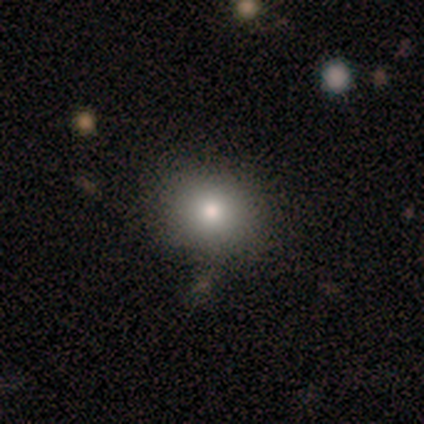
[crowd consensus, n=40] A smooth galaxy with no disk features (72%) that is round (79%).

Vote fractions:
- Smooth or featured? smooth: 72% / featured or disk: 15% / star or artifact: 12%
- How rounded? round: 79% / in between: 21% / cigar-shaped: 0%
- Merging? none: 89% / merger: 9% / minor disturbance: 3% / major disturbance: 0%